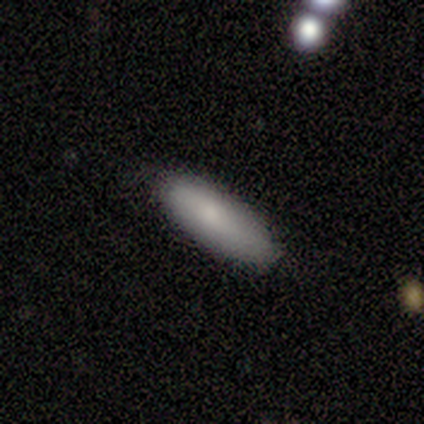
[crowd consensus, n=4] Smooth or featured? smooth (50%)
How rounded? in between (100%)
Merging? minor disturbance (67%)